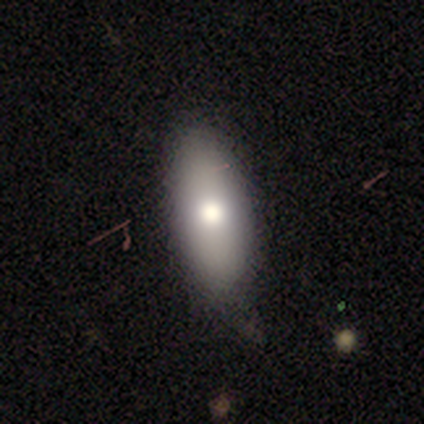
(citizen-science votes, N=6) Smooth or featured? 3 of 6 (50%) said featured or disk. Edge-on disk? 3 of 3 (100%) said no. Bar? 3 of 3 (100%) said no. Spiral arms? 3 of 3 (100%) said no. Bulge size? 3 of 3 (100%) said moderate. Merging? 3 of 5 (60%) said none.